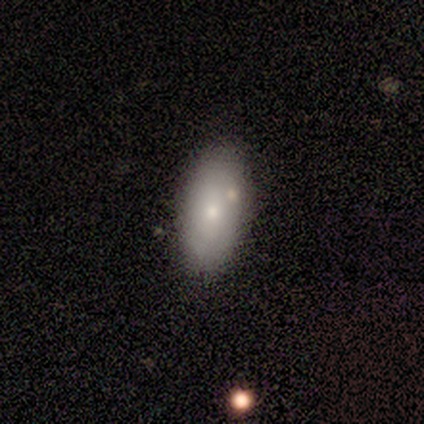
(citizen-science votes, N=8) smooth_or_featured: smooth (p=0.75) [alt: featured or disk p=0.25]
how_rounded: in between (p=0.83) [alt: cigar-shaped p=0.17]
merging: none (p=0.88) [alt: minor disturbance p=0.12]